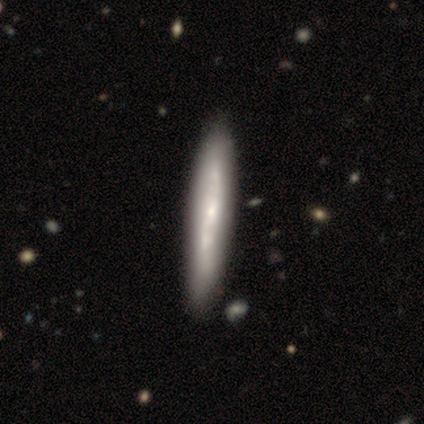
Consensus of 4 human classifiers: A smooth galaxy with no disk features (75%) that is cigar-shaped (100%). Merging: none (50%).